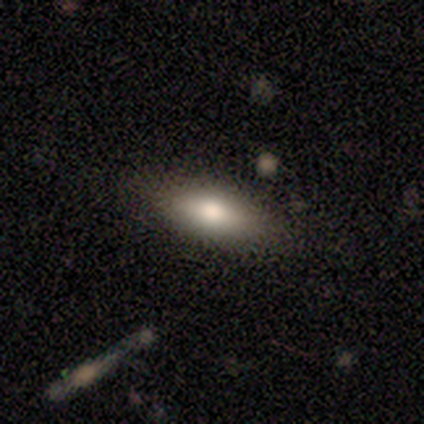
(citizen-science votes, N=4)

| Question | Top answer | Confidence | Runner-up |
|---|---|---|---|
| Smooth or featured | smooth | 100% | — |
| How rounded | in between | 100% | — |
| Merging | none | 50% | tied: minor disturbance (50%) |